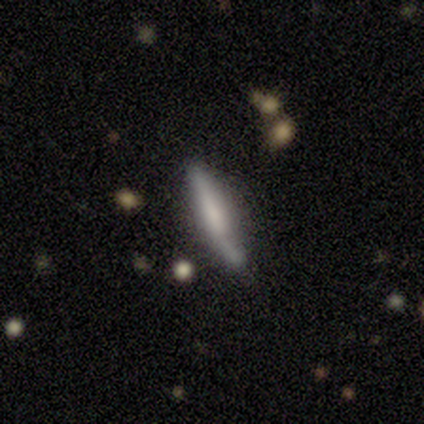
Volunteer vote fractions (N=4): Smooth or featured? featured or disk (75%)
Edge-on disk? yes (100%)
Edge-on bulge? none (67%)
Merging? none (50%)